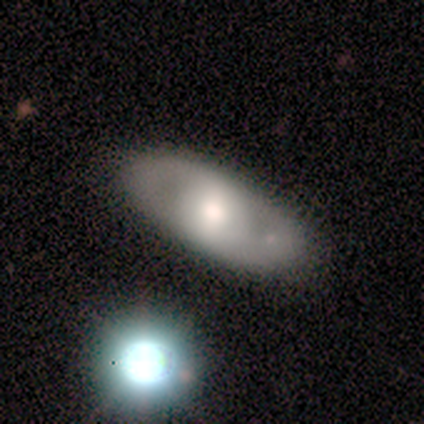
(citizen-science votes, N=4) Overall: featured or disk (50%; smooth 25%). Edge-on disk: no (100%). Bar: no (100%). Spiral arms: yes (100%). Spiral arm count: 2 (100%). Spiral winding: tight (50%, tied with loose). Bulge size: moderate (100%). Merging: none (67%; minor disturbance 33%).